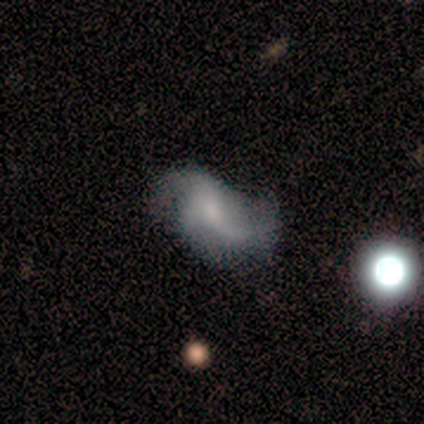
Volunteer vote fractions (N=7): Smooth or featured?
  - featured or disk: 71% *
  - smooth: 29%
  - star or artifact: 0%
Edge-on disk?
  - no: 100% *
  - yes: 0%
Bar?
  - weak: 60% *
  - no: 40%
  - strong: 0%
Spiral arms?
  - yes: 80% *
  - no: 20%
Spiral winding?
  - loose: 75% *
  - medium: 25%
  - tight: 0%
Spiral arm count?
  - 2: 50% *
  - 3: 25%
  - can't tell: 25%
  - 1: 0%
  - 4: 0%
  - more than 4: 0%
Bulge size?
  - small: 40% * (tied)
  - none: 40% * (tied)
  - moderate: 20%
  - dominant: 0%
  - large: 0%
Merging?
  - none: 43% * (tied)
  - minor disturbance: 43% * (tied)
  - major disturbance: 14%
  - merger: 0%